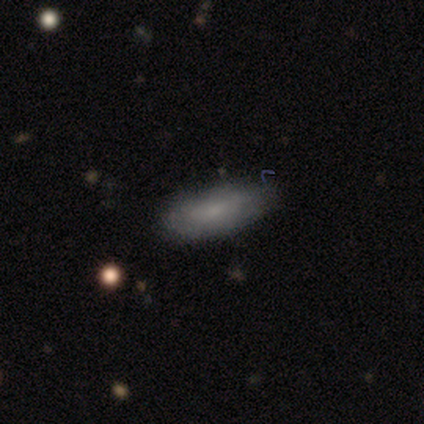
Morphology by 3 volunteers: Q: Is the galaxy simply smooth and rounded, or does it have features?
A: smooth — 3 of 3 (100%).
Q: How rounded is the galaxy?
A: in between — 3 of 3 (100%).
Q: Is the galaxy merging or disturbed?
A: none — 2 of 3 (67%).